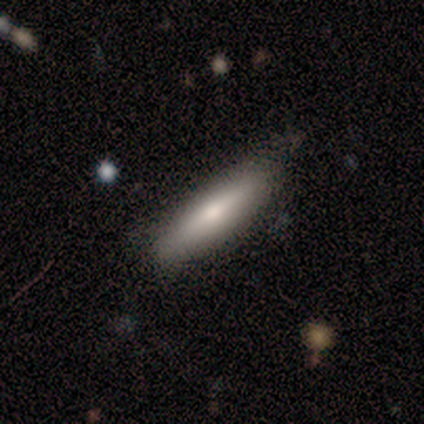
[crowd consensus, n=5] A featured or disk galaxy (60%) viewed edge-on (67%) with a rounded central bulge (100%). Merging: none (60%).